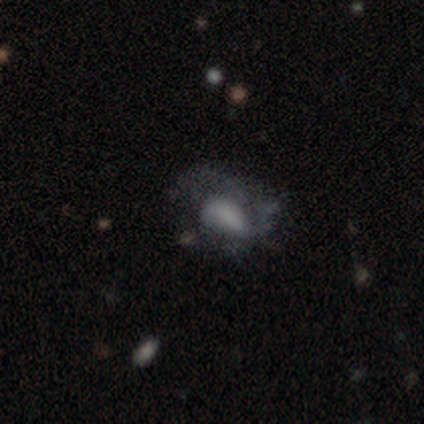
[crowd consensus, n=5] A smooth galaxy with no disk features (100%) that is in between round and cigar-shaped (100%).

Vote fractions:
- Smooth or featured? smooth: 100% / featured or disk: 0% / star or artifact: 0%
- How rounded? in between: 100% / round: 0% / cigar-shaped: 0%
- Merging? none: 40% (tied) / major disturbance: 40% (tied) / minor disturbance: 20% / merger: 0%